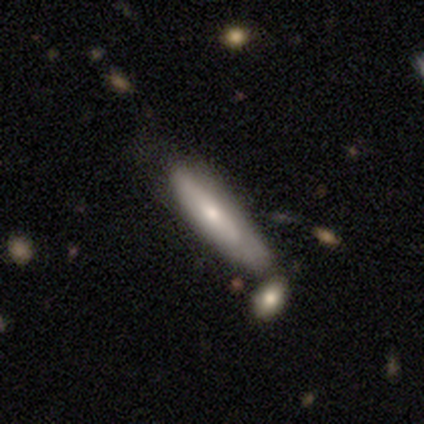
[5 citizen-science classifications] smooth 80%, featured or disk 20%, star or artifact 0%. Down the decision tree: how rounded — in between (50%, tied with cigar-shaped); merging — none (60%).